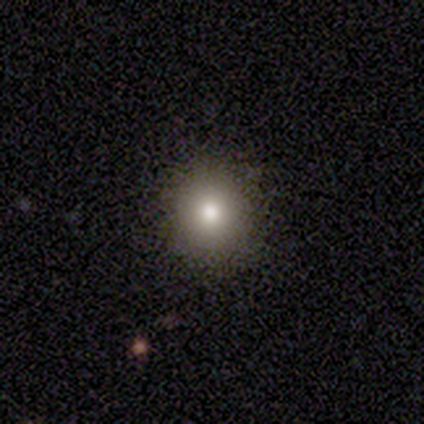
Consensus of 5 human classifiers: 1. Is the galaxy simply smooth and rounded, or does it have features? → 100% smooth, 0% featured or disk, 0% star or artifact.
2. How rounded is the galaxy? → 80% round, 20% in between, 0% cigar-shaped.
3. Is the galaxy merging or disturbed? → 100% none, 0% minor disturbance, 0% major disturbance, 0% merger.